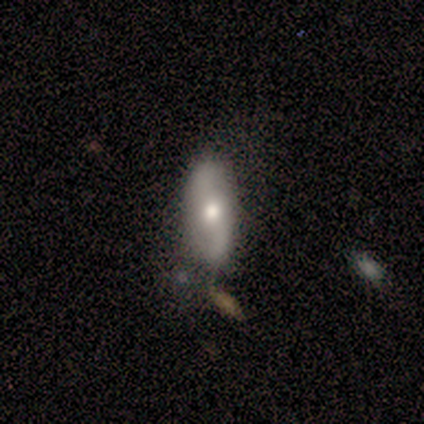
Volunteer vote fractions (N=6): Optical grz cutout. It shows a featured or disk galaxy (67%) with no bar (100%), 2 (100%) medium (50%, tied with loose) spiral arms (67%) and a moderate central bulge (100%). Merging: none (83%).